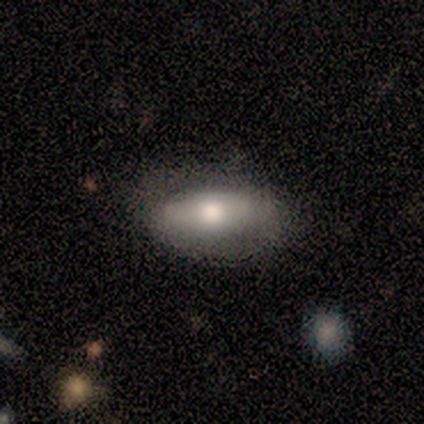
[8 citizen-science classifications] smooth_or_featured: smooth (p=0.88) [alt: featured or disk p=0.12]
how_rounded: in between (p=0.86) [alt: cigar-shaped p=0.14]
merging: none (p=0.62) [alt: minor disturbance p=0.38]